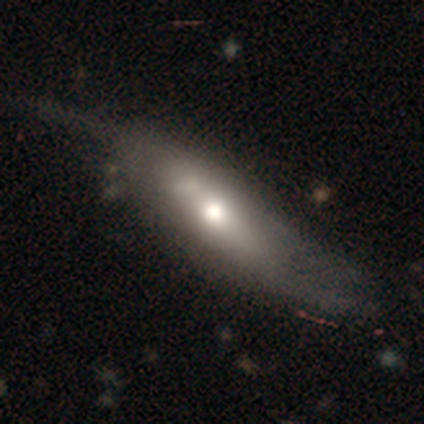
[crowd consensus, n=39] Volunteers were most divided on "smooth or featured": featured or disk: 51%, smooth: 44%, star or artifact: 5%. Remaining: spiral winding — loose (100%); spiral arm count — 2 (100%); spiral arms — yes (82%); bulge size — moderate (82%); edge-on disk — no (55%); bar — no (45%); merging — none (43%).